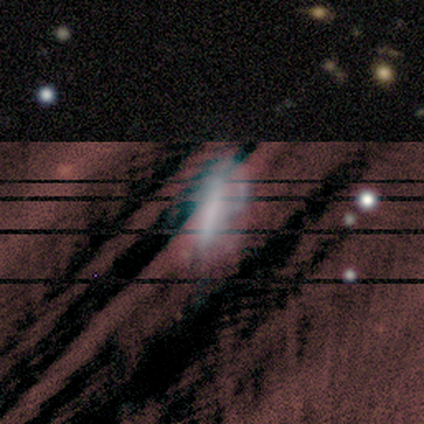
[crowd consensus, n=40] Overall: star or artifact (40%; featured or disk 32%).